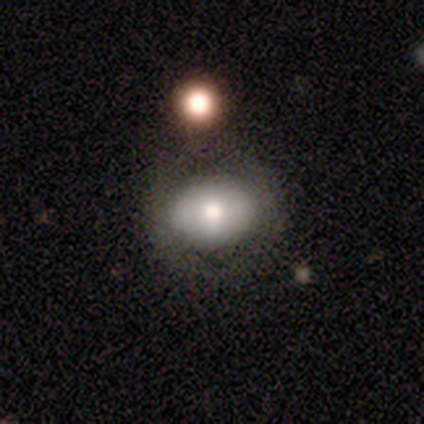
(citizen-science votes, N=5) A smooth galaxy with no disk features (80%) that is in between round and cigar-shaped (75%).

Vote fractions:
- Smooth or featured? smooth: 80% / featured or disk: 20% / star or artifact: 0%
- How rounded? in between: 75% / round: 25% / cigar-shaped: 0%
- Merging? none: 60% / minor disturbance: 40% / major disturbance: 0% / merger: 0%